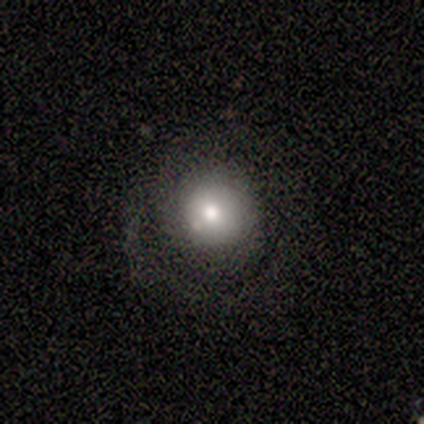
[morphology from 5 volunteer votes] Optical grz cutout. It shows a featured or disk galaxy (100%) with no bar (100%), 1 (50%, tied with 2) tight (50%, tied with medium) spiral arms (50%, tied with no) and a large central bulge (50%). Merging: none (80%).